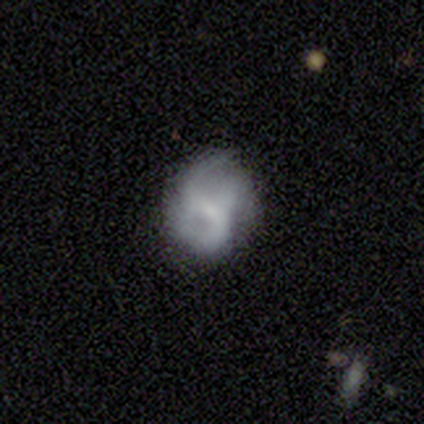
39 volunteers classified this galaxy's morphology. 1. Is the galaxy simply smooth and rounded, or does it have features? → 72% featured or disk, 15% star or artifact, 13% smooth.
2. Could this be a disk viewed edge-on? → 100% no, 0% yes.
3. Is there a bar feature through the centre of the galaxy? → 61% weak, 32% no, 7% strong.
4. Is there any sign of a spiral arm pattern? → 86% yes, 14% no.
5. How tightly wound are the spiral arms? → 54% loose, 42% medium, 4% tight.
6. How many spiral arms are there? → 50% 2, 38% 3, 8% can't tell, 4% 1, 0% 4, 0% more than 4.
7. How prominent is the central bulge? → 50% small, 36% none, 11% moderate, 4% large, 0% dominant.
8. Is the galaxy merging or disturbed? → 55% none, 33% minor disturbance, 12% major disturbance, 0% merger.